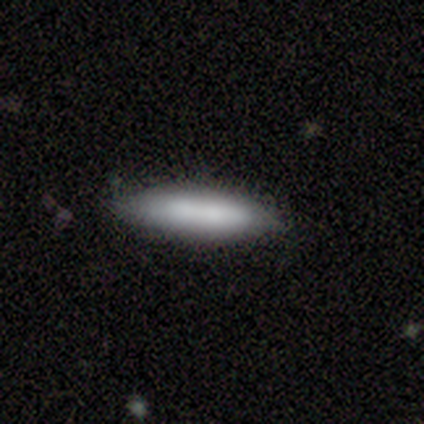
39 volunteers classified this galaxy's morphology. Smooth or featured?
  - smooth: 77% *
  - featured or disk: 18%
  - star or artifact: 5%
How rounded?
  - cigar-shaped: 80% *
  - in between: 20%
  - round: 0%
Merging?
  - none: 76% *
  - minor disturbance: 22%
  - merger: 3%
  - major disturbance: 0%